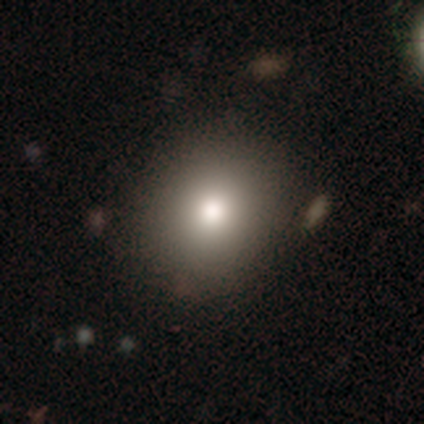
Smooth or featured: smooth — 84% (star or artifact — 10%)
How rounded: round — 85% (in between — 13%)
Merging: none — 43% (minor disturbance — 6%)